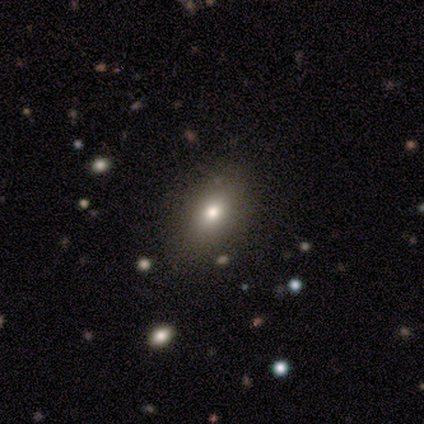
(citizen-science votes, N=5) smooth-or-featured: smooth: 60% | star or artifact: 40% | featured or disk: 0%
  how-rounded: in between: 67% | round: 33% | cigar-shaped: 0%
  merging: none: 100% | minor disturbance: 0% | major disturbance: 0% | merger: 0%